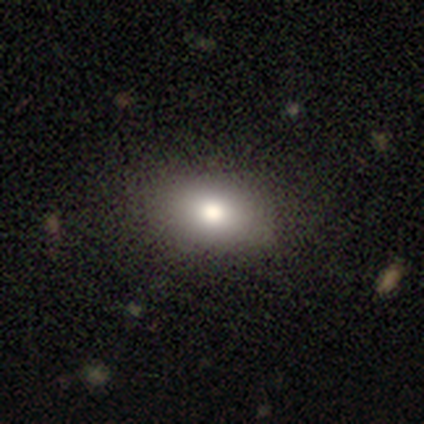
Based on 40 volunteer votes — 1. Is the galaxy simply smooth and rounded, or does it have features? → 82% smooth, 10% star or artifact, 8% featured or disk.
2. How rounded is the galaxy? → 76% in between, 24% round, 0% cigar-shaped.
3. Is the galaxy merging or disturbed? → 92% none, 3% minor disturbance, 3% major disturbance, 3% merger.